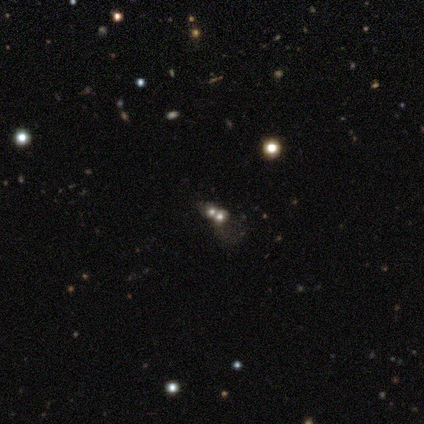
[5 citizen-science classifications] Overall: smooth (60%; featured or disk 40%). How rounded: round (100%). Merging: merger (80%).